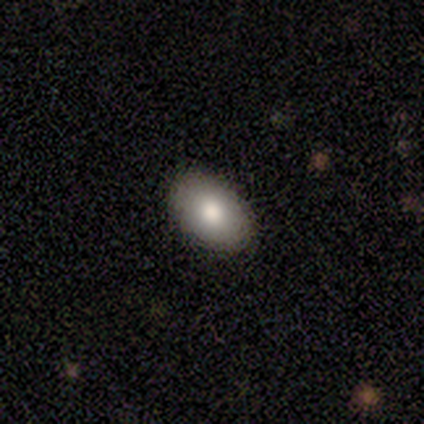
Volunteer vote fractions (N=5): Smooth or featured?
  - smooth: 80% *
  - featured or disk: 20%
  - star or artifact: 0%
How rounded?
  - in between: 75% *
  - round: 25%
  - cigar-shaped: 0%
Merging?
  - none: 100% *
  - minor disturbance: 0%
  - major disturbance: 0%
  - merger: 0%